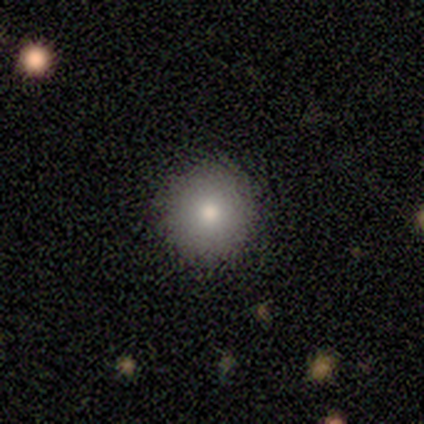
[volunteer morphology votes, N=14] This appears to be a smooth galaxy with no disk features (86%) that is round (92%). Merging: none (85%).